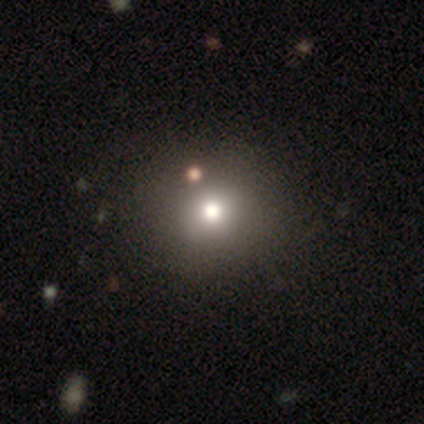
smooth-or-featured: smooth: 61% | star or artifact: 28% | featured or disk: 11%
  how-rounded: round: 94% | in between: 6% | cigar-shaped: 0%
  merging: none: 84% | minor disturbance: 7% | major disturbance: 5% | merger: 4%